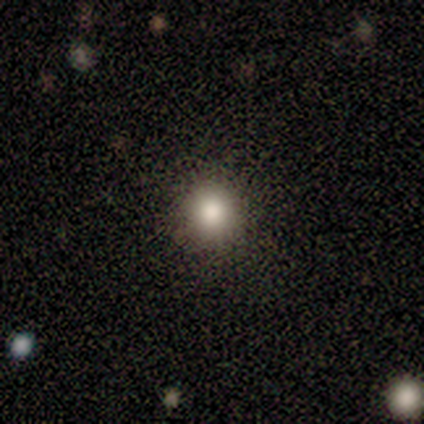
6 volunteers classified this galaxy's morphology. This appears to be a smooth galaxy with no disk features (83%) that is round (100%). Merging: none (80%).